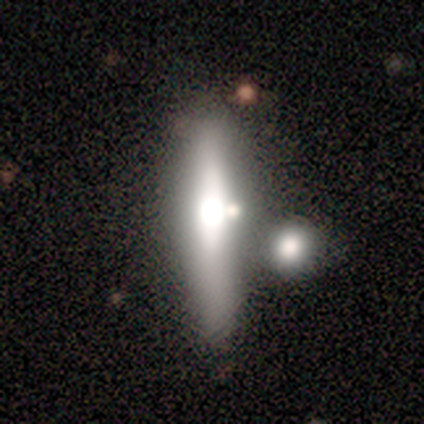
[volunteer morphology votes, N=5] Volunteers were most divided on "smooth or featured": featured or disk: 60%, smooth: 40%, star or artifact: 0%. More confident: edge-on disk — yes (100%); edge-on bulge — rounded (100%); merging — none (60%).